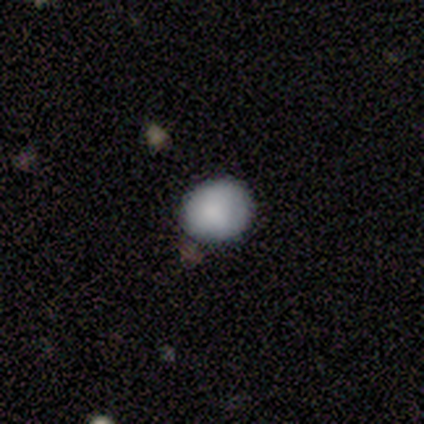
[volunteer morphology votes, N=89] Smooth or featured?
  - smooth: 89% *
  - featured or disk: 8%
  - star or artifact: 3%
How rounded?
  - round: 68% *
  - in between: 32%
  - cigar-shaped: 0%
Merging?
  - none: 90% *
  - minor disturbance: 8%
  - major disturbance: 1%
  - merger: 1%